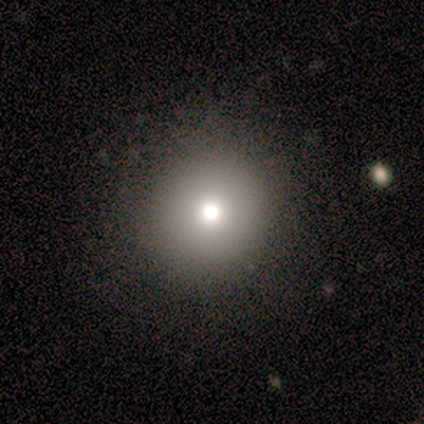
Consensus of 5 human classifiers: Overall: smooth (60%; featured or disk 40%). How rounded: round (100%). Merging: none (100%).